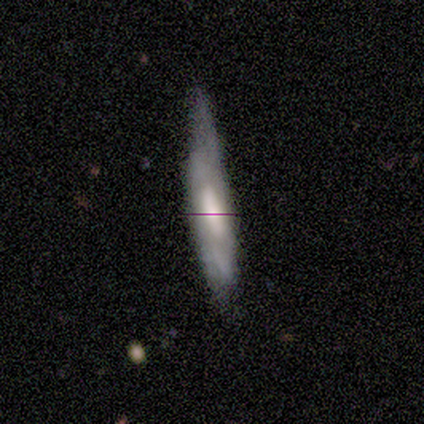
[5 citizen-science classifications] Smooth or featured: smooth — 40% (tied with featured or disk — 40%)
How rounded: cigar-shaped — 100%
Merging: none — 50% (tied with minor disturbance — 50%)